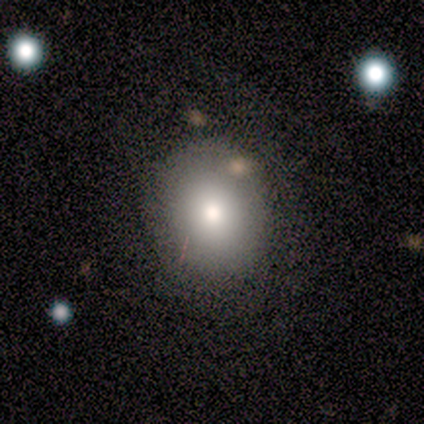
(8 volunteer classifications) A smooth galaxy with no disk features (75%) that is round (50%, tied with in between). Merging: none (50%).